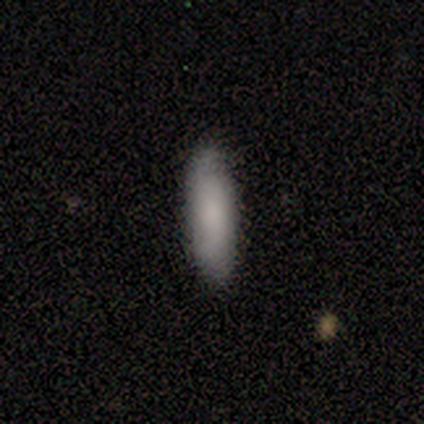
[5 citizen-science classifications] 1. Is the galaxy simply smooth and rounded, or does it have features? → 100% smooth, 0% featured or disk, 0% star or artifact.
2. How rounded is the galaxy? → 80% cigar-shaped, 20% in between, 0% round.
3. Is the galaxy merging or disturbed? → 80% none, 20% minor disturbance, 0% major disturbance, 0% merger.